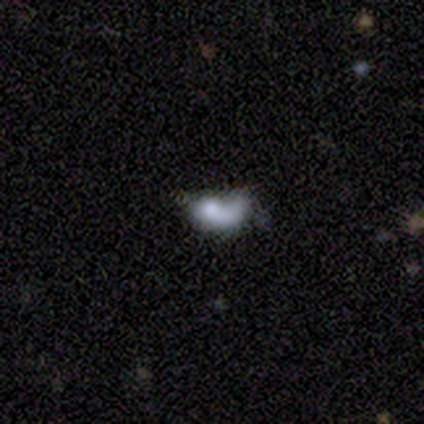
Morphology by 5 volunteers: Smooth or featured? 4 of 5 (80%) said featured or disk. Edge-on disk? 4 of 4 (100%) said no. Bar? 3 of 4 (75%) said no. Spiral arms? 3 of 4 (75%) said no. Bulge size? 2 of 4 (50%) said small. Merging? 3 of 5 (60%) said none.